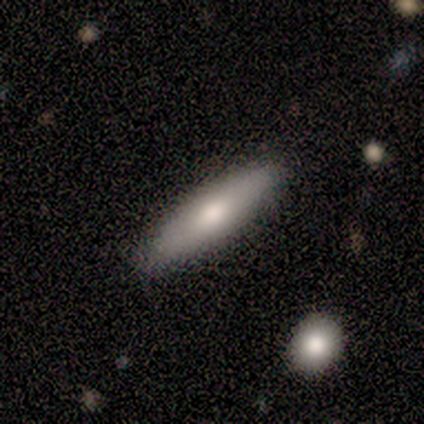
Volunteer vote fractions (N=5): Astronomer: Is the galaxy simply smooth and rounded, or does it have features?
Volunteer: smooth — 80%.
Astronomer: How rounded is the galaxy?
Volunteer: cigar-shaped — 75%.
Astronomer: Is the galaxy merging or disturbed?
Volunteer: none — 80%.